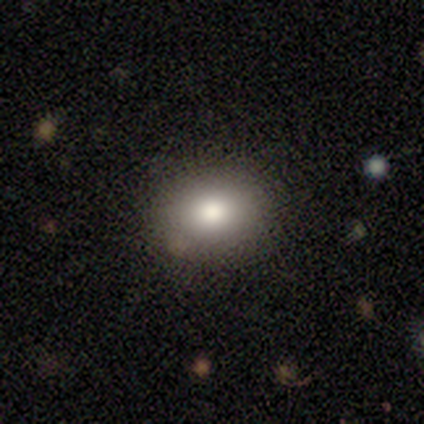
Morphology: type=smooth (89%); roundness=round (50%, tied with in between); merging=none (78%).